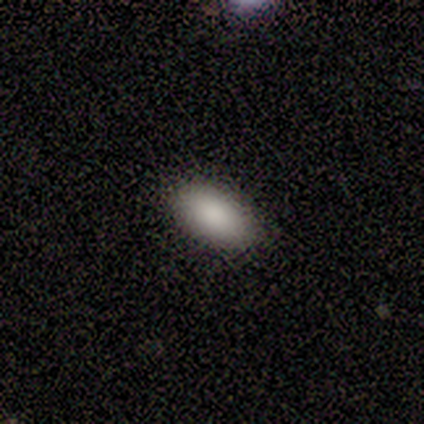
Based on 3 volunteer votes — Morphology: type=smooth (67%); roundness=in between (100%); merging=none (100%).